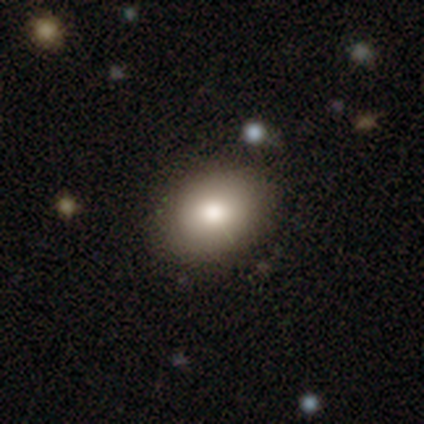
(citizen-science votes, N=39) Smooth or featured? smooth (72%)
How rounded? in between (75%)
Merging? none (86%)